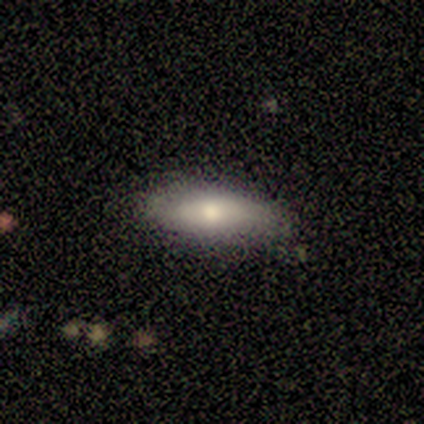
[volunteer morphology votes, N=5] Smooth or featured? smooth (100%)
How rounded? in between (60%)
Merging? none (60%)